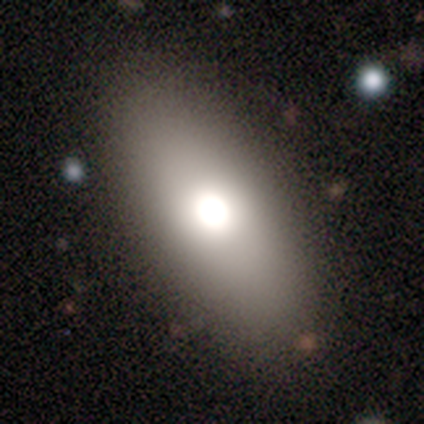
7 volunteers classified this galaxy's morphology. This appears to be a smooth galaxy with no disk features (71%) that is in between round and cigar-shaped (100%). Merging: none (86%).